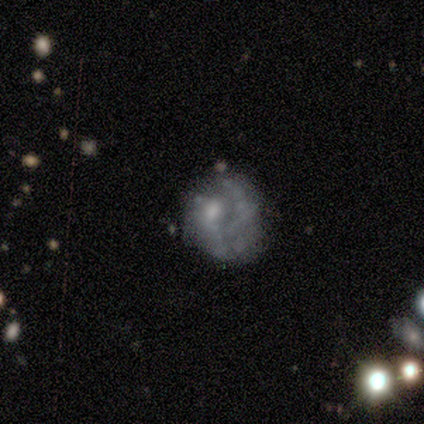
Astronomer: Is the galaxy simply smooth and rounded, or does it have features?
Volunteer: featured or disk — 100%.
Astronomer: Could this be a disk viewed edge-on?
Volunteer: no — 100%.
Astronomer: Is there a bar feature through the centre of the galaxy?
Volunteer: no — 100%.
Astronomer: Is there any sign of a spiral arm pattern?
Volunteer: yes — 60% (runner-up: no, 40%).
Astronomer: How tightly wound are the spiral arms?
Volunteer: medium — 67%.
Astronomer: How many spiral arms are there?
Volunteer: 1 — 67%.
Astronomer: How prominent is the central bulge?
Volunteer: moderate — 40%, tied with none at 40%.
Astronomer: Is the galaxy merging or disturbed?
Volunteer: none — 60%.